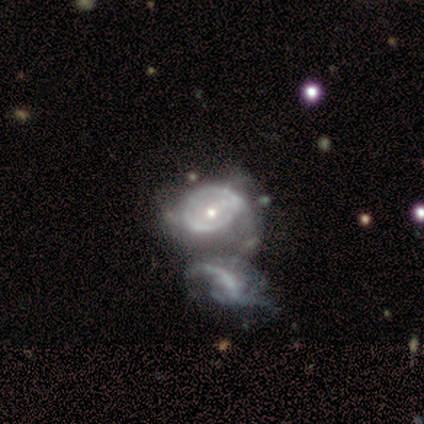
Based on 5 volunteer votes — A featured or disk galaxy (80%) with no bar (100%), 2 (67%) tight (33%, tied with medium and loose) spiral arms (75%) and a moderate central bulge (50%, tied with small). Merging: merger (80%).